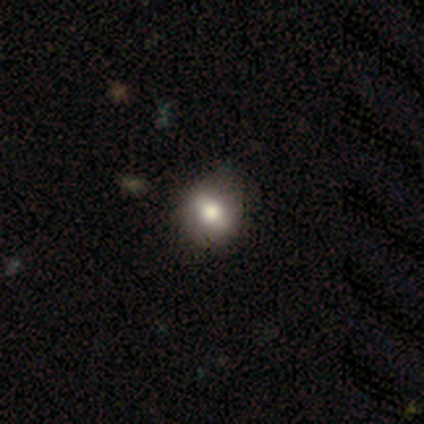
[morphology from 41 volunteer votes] smooth-or-featured: smooth: 66% | featured or disk: 29% | star or artifact: 5%
  how-rounded: round: 74% | in between: 26% | cigar-shaped: 0%
  merging: none: 79% | minor disturbance: 18% | merger: 3% | major disturbance: 0%